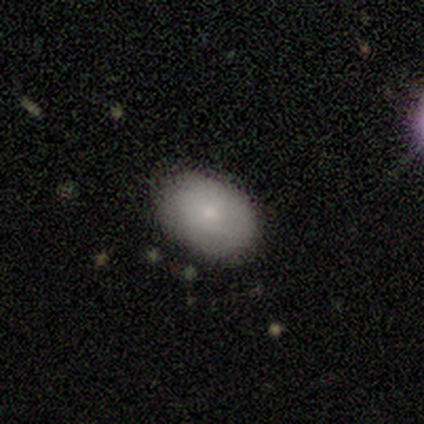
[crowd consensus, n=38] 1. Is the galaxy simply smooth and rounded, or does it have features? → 68% smooth, 18% featured or disk, 13% star or artifact.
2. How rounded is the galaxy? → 92% in between, 8% round, 0% cigar-shaped.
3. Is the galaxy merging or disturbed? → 79% none, 21% minor disturbance, 0% major disturbance, 0% merger.